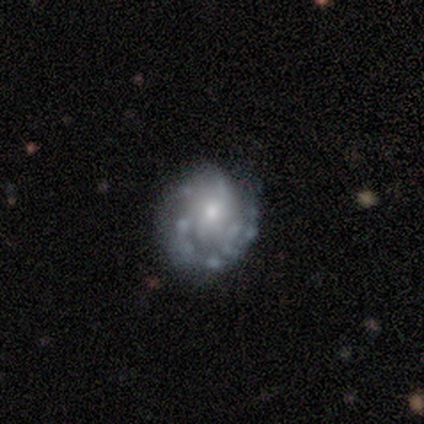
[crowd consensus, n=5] A featured or disk galaxy (60%) with no bar (100%), 2 (50%, tied with can't tell) medium (100%) spiral arms (67%) and a moderate central bulge (67%). Merging: none (60%).